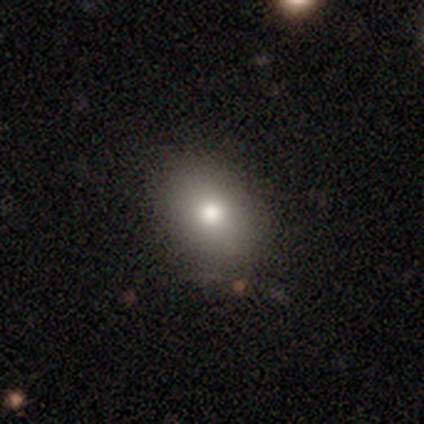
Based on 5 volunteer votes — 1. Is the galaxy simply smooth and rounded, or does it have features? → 60% smooth, 40% featured or disk, 0% star or artifact.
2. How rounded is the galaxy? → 100% in between, 0% round, 0% cigar-shaped.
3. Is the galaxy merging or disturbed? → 80% none, 20% minor disturbance, 0% major disturbance, 0% merger.